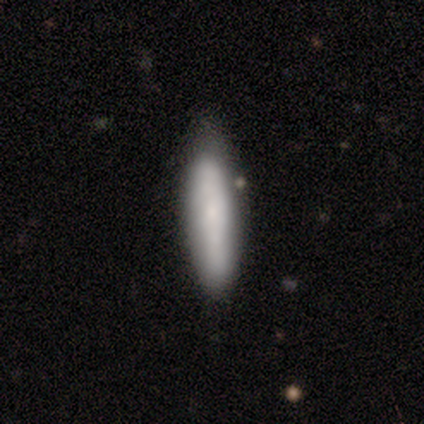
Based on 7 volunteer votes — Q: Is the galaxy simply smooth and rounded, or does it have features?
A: smooth — 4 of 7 (57%).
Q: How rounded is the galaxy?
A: cigar-shaped — 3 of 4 (75%).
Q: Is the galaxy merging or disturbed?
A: none — 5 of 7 (71%).